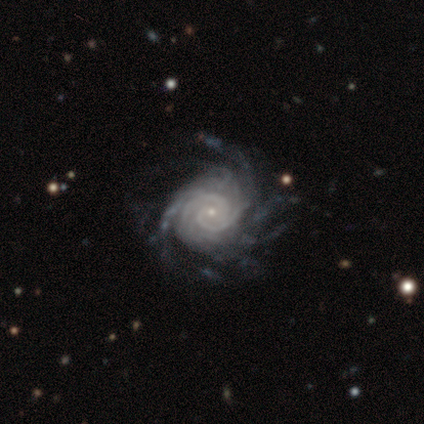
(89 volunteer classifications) Q: Smooth or featured?
A: featured or disk (97%); runner-up: smooth (2%)
Q: Edge-on disk?
A: no (99%); runner-up: yes (1%)
Q: Bar?
A: no (72%); runner-up: weak (18%)
Q: Spiral arms?
A: yes (100%)
Q: Spiral winding?
A: tight (76%); runner-up: medium (19%)
Q: Spiral arm count?
A: more than 4 (31%); runner-up: can't tell (26%)
Q: Bulge size?
A: small (91%); runner-up: moderate (6%)
Q: Merging?
A: none (70%); runner-up: minor disturbance (16%)